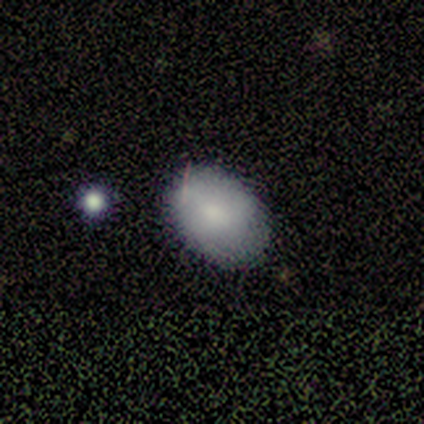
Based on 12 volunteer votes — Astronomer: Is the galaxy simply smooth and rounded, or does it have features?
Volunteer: smooth — 67%.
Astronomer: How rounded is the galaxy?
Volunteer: in between — 75%.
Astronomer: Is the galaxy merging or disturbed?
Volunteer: none — 82%.